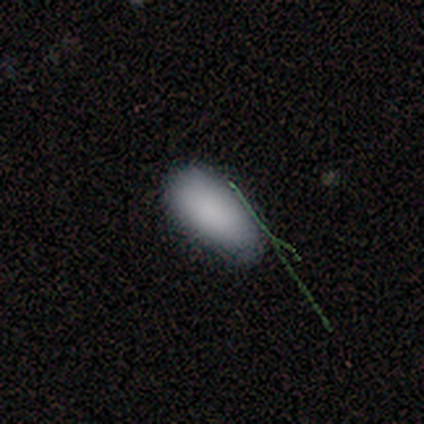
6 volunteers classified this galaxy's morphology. A smooth galaxy with no disk features (100%) that is in between round and cigar-shaped (83%). Merging: none (100%).